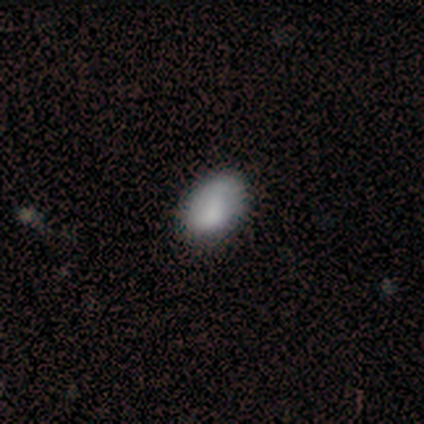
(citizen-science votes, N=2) Q: Smooth or featured?
A: smooth (100%)
Q: How rounded?
A: round (50%); tied with: in between (50%)
Q: Merging?
A: none (100%)